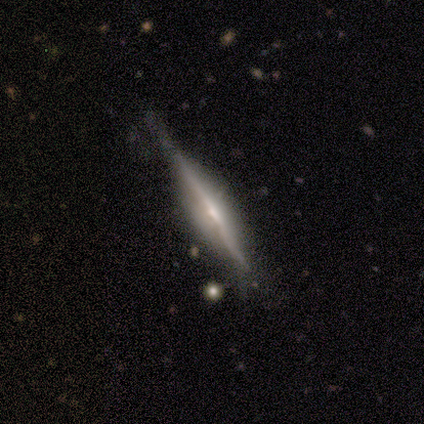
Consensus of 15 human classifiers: Smooth or featured? 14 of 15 (93%) said featured or disk. Edge-on disk? 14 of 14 (100%) said yes. Edge-on bulge? 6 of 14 (43%, tied with rounded) said boxy. Merging? 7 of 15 (47%, tied with minor disturbance) said none.